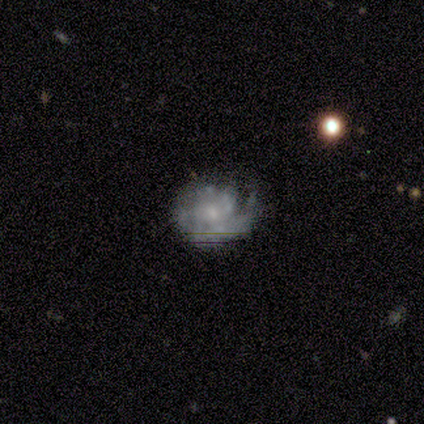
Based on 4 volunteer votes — smooth-or-featured: featured or disk: 100% | smooth: 0% | star or artifact: 0%
  disk-edge-on: no: 100% | yes: 0%
    bar: no: 75% | weak: 25% | strong: 0%
    has-spiral-arms: yes: 75% | no: 25%
      spiral-winding: tight: 33% (tied) | medium: 33% (tied) | loose: 33% (tied)
      spiral-arm-count: 1: 33% (tied) | 2: 33% (tied) | can't tell: 33% (tied) | 3: 0% | 4: 0% | more than 4: 0%
    bulge-size: moderate: 75% | small: 25% | dominant: 0% | large: 0% | none: 0%
  merging: minor disturbance: 75% | major disturbance: 25% | none: 0% | merger: 0%